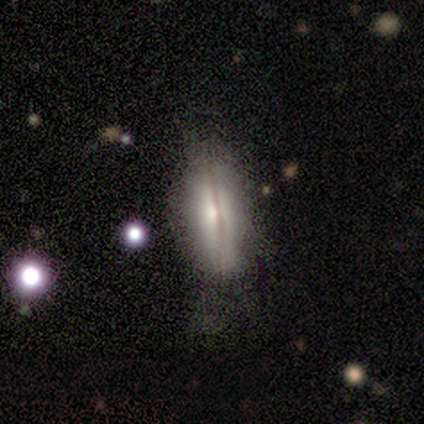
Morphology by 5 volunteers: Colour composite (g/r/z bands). It shows a smooth galaxy with no disk features (60%) that is in between round and cigar-shaped (67%). Merging: none (100%).